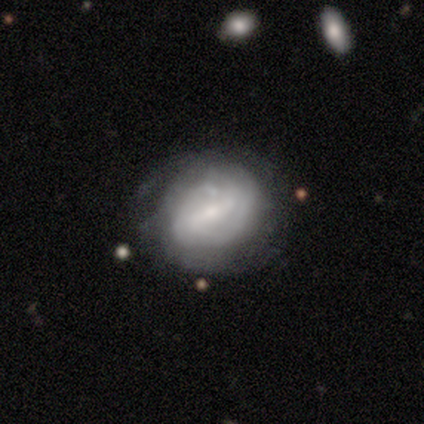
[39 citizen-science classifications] smooth-or-featured: featured or disk: 64% | smooth: 31% | star or artifact: 5%
  disk-edge-on: no: 100% | yes: 0%
    bar: weak: 52% | strong: 28% | no: 20%
    has-spiral-arms: yes: 76% | no: 24%
      spiral-winding: tight: 42% | medium: 37% | loose: 21%
      spiral-arm-count: can't tell: 47% | 2: 21% | 4: 11% | more than 4: 11% | 1: 5% | 3: 5%
    bulge-size: small: 72% | moderate: 24% | dominant: 4% | large: 0% | none: 0%
  merging: none: 73% | major disturbance: 14% | minor disturbance: 11% | merger: 3%